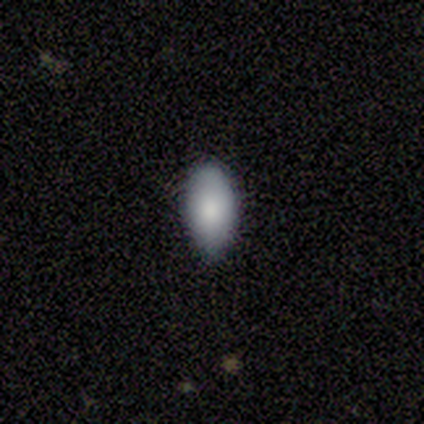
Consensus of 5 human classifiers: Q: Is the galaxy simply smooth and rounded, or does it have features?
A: smooth — 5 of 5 (100%).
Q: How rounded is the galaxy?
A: in between — 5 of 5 (100%).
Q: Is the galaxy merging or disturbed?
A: none — 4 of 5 (80%).